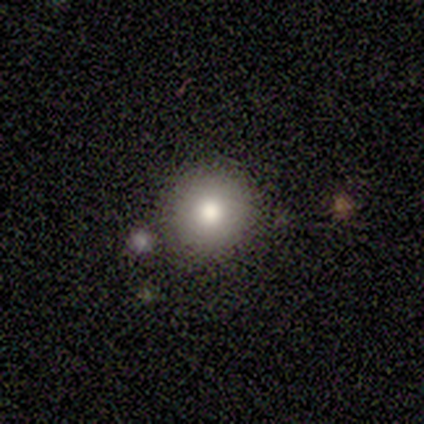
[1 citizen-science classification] Q: Smooth or featured?
A: smooth (100%)
Q: How rounded?
A: round (100%)
Q: Merging?
A: none (100%)